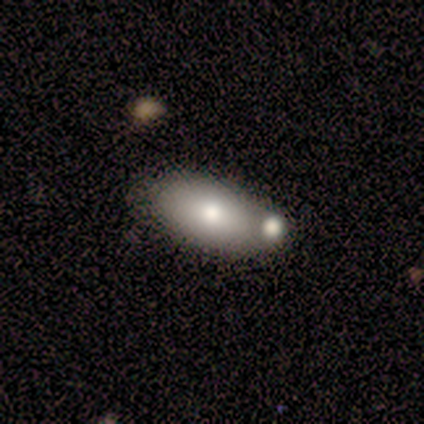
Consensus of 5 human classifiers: This appears to be a smooth galaxy with no disk features (60%) that is in between round and cigar-shaped (100%). Merging: none (40%).